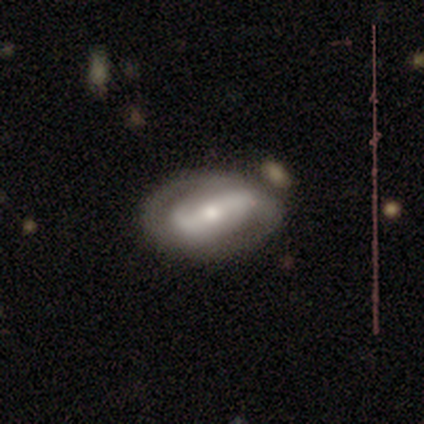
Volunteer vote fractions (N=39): Morphology: type=featured or disk (79%); edge-on=no (97%); bar=strong (47%); spiral arms=yes (77%); winding=tight (39%); arm count=2 (83%); bulge=moderate (53%); merging=none (82%).